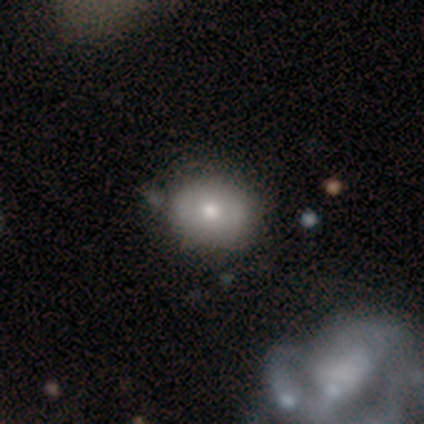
smooth_or_featured: featured or disk (p=0.60) [alt: smooth p=0.40]
disk_edge_on: no (p=1.00)
bar: no (p=1.00)
has_spiral_arms: no (p=0.67) [alt: yes p=0.33]
bulge_size: large (p=0.33) [tied with: moderate p=0.33, small p=0.33]
merging: none (p=0.60) [alt: minor disturbance p=0.20]